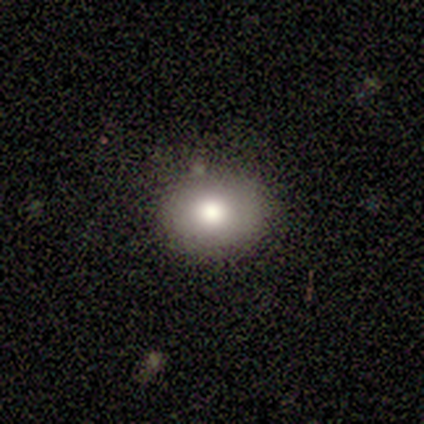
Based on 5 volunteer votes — A smooth galaxy with no disk features (60%) that is round (67%).

Vote fractions:
- Smooth or featured? smooth: 60% / featured or disk: 20% / star or artifact: 20%
- How rounded? round: 67% / in between: 33% / cigar-shaped: 0%
- Merging? none: 75% / major disturbance: 25% / minor disturbance: 0% / merger: 0%